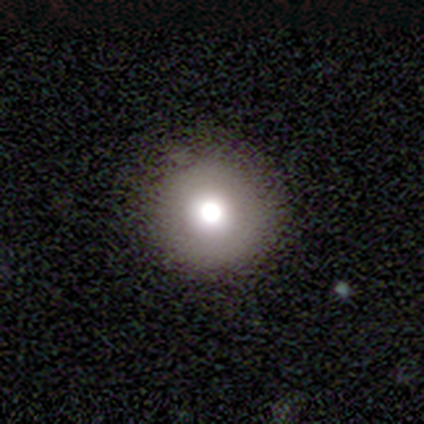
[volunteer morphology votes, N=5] Volunteers were most divided on "smooth or featured": smooth: 80%, featured or disk: 20%, star or artifact: 0%. More confident: how rounded — round (100%); merging — none (100%).